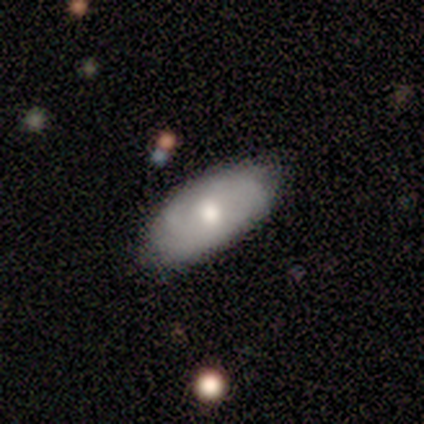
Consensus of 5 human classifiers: Smooth or featured? 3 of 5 (60%) said featured or disk. Edge-on disk? 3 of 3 (100%) said no. Bar? 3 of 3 (100%) said no. Spiral arms? 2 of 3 (67%) said no. Bulge size? 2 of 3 (67%) said moderate. Merging? 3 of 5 (60%) said none.